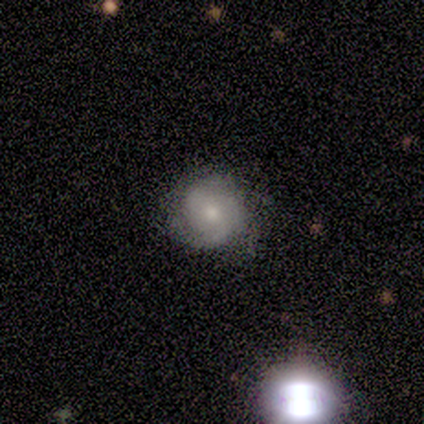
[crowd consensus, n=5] Smooth or featured: featured or disk — 100%
Edge-on disk: no — 100%
Bar: no — 60% (weak — 40%)
Spiral arms: yes — 100%
Spiral winding: tight — 60% (medium — 20%)
Spiral arm count: 2 — 60% (can't tell — 40%)
Bulge size: small — 60% (moderate — 40%)
Merging: none — 80% (minor disturbance — 20%)